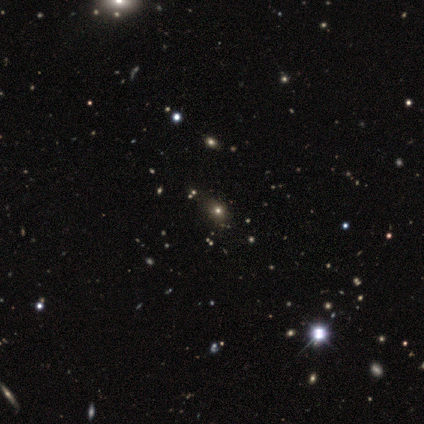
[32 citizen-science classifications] Smooth or featured? smooth (56%)
How rounded? round (50%)
Merging? none (86%)